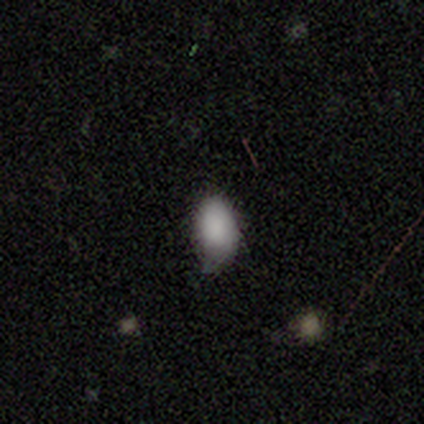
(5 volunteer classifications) smooth_or_featured: smooth (p=1.00)
how_rounded: in between (p=1.00)
merging: none (p=0.80) [alt: minor disturbance p=0.20]